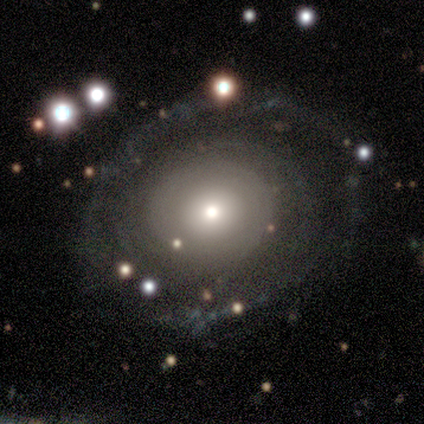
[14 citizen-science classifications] smooth-or-featured: featured or disk: 64% | smooth: 29% | star or artifact: 7%
  disk-edge-on: no: 89% | yes: 11%
    bar: no: 88% | strong: 12% | weak: 0%
    has-spiral-arms: yes: 62% | no: 38%
      spiral-winding: tight: 100% | medium: 0% | loose: 0%
      spiral-arm-count: can't tell: 60% | 1: 20% | 4: 20% | 2: 0% | 3: 0% | more than 4: 0%
    bulge-size: moderate: 75% | large: 12% | small: 12% | dominant: 0% | none: 0%
  merging: none: 69% | major disturbance: 31% | minor disturbance: 0% | merger: 0%